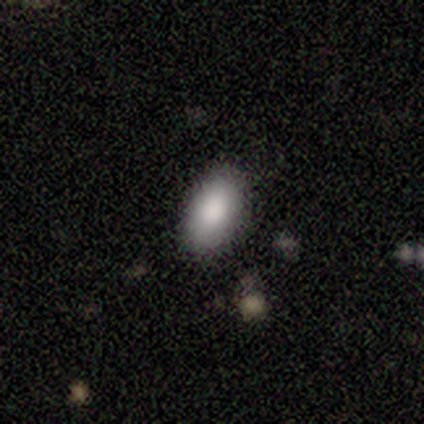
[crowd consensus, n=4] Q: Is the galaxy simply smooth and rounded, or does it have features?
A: smooth — 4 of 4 (100%).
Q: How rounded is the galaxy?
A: in between — 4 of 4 (100%).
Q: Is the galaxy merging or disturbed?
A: none — 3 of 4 (75%).